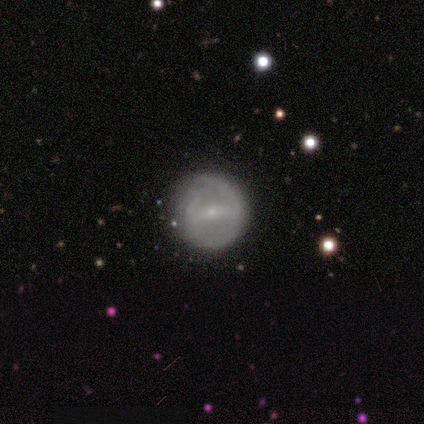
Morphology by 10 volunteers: Overall: featured or disk (70%; smooth 30%). Edge-on disk: no (100%). Bar: strong (57%; weak 43%). Spiral arms: yes (71%). Spiral arm count: 2 (80%). Spiral winding: medium (60%; tight 40%). Bulge size: small (86%). Merging: minor disturbance (60%; none 40%).